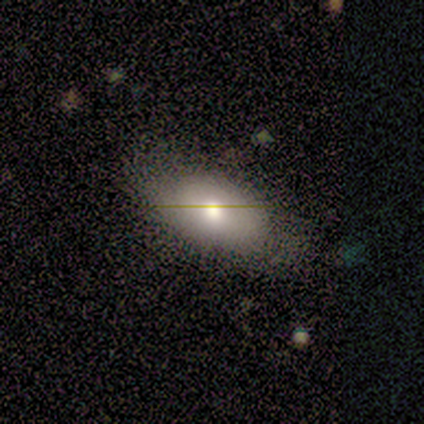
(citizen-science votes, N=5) Morphology: type=smooth (60%); roundness=in between (100%); merging=none (80%).